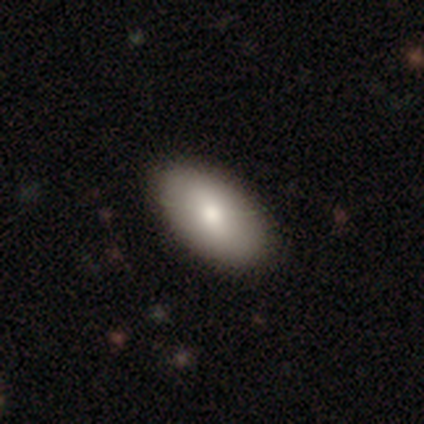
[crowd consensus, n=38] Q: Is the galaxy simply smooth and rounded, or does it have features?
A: smooth — 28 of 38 (74%).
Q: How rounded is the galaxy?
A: in between — 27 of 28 (96%).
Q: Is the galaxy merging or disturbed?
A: none — 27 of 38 (71%).